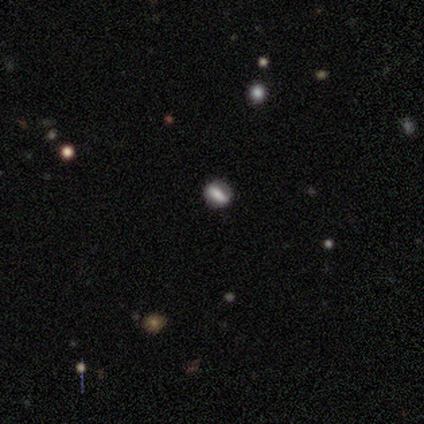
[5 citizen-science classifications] smooth_or_featured: featured or disk (p=0.60) [alt: smooth p=0.40]
disk_edge_on: no (p=1.00)
bar: strong (p=0.33) [tied with: weak p=0.33, no p=0.33]
has_spiral_arms: no (p=1.00)
bulge_size: large (p=0.33) [tied with: moderate p=0.33, none p=0.33]
merging: none (p=1.00)